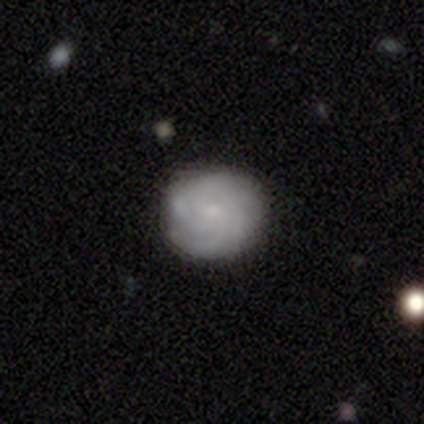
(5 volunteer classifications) Q: Smooth or featured?
A: smooth (60%); runner-up: featured or disk (40%)
Q: How rounded?
A: in between (67%); runner-up: round (33%)
Q: Merging?
A: none (100%)